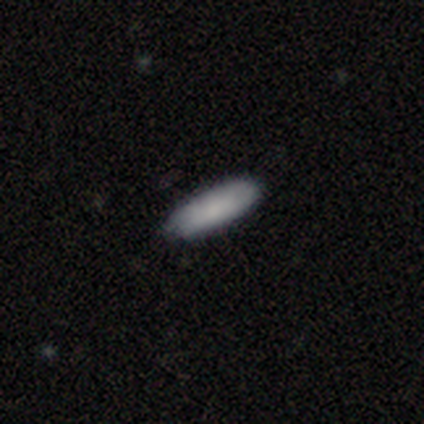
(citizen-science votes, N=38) smooth 95%, featured or disk 3%, star or artifact 3%. Down the decision tree: how rounded — in between (50%, tied with cigar-shaped); merging — none (86%).